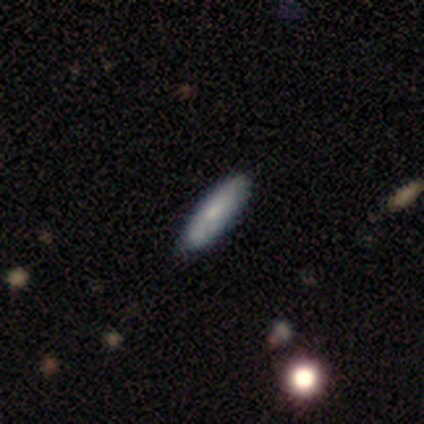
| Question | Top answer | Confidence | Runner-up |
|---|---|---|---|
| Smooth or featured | smooth | 100% | — |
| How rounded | cigar-shaped | 75% | in between (25%) |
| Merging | none | 75% | minor disturbance (25%) |